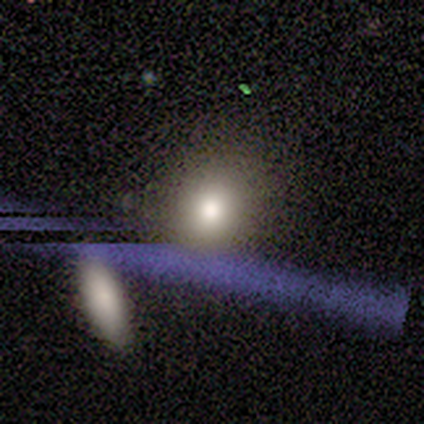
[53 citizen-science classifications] Smooth or featured: smooth — 60% (star or artifact — 21%)
How rounded: round — 66% (in between — 34%)
Merging: none — 79% (merger — 14%)